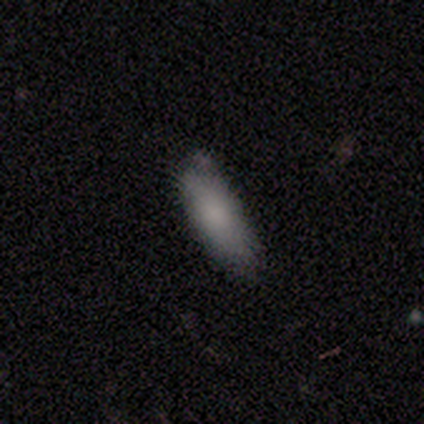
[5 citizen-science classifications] Smooth or featured?
  - smooth: 80% *
  - featured or disk: 20%
  - star or artifact: 0%
How rounded?
  - cigar-shaped: 75% *
  - in between: 25%
  - round: 0%
Merging?
  - none: 60% *
  - minor disturbance: 40%
  - major disturbance: 0%
  - merger: 0%